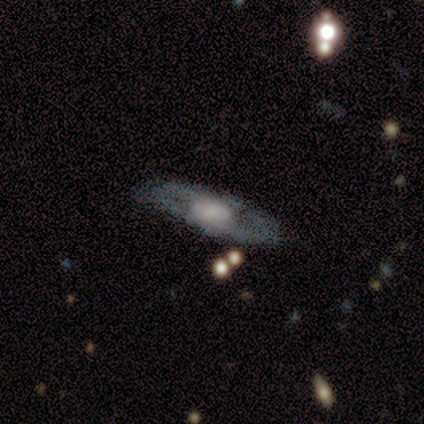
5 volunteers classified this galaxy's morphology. smooth-or-featured: featured or disk: 100% | smooth: 0% | star or artifact: 0%
  disk-edge-on: no: 60% | yes: 40%
    bar: no: 67% | strong: 33% | weak: 0%
    has-spiral-arms: no: 100% | yes: 0%
    bulge-size: large: 67% | moderate: 33% | dominant: 0% | small: 0% | none: 0%
  merging: none: 80% | major disturbance: 20% | minor disturbance: 0% | merger: 0%